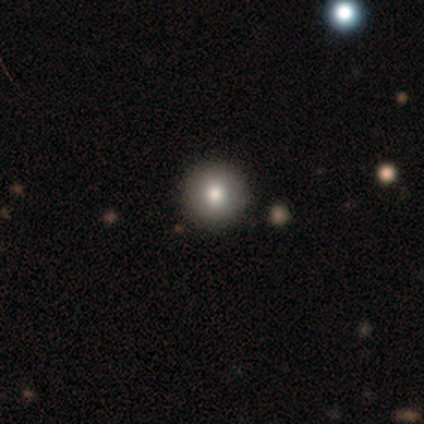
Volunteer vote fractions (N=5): Smooth or featured?
  - smooth: 80% *
  - star or artifact: 20%
  - featured or disk: 0%
How rounded?
  - round: 100% *
  - in between: 0%
  - cigar-shaped: 0%
Merging?
  - none: 75% *
  - minor disturbance: 25%
  - major disturbance: 0%
  - merger: 0%